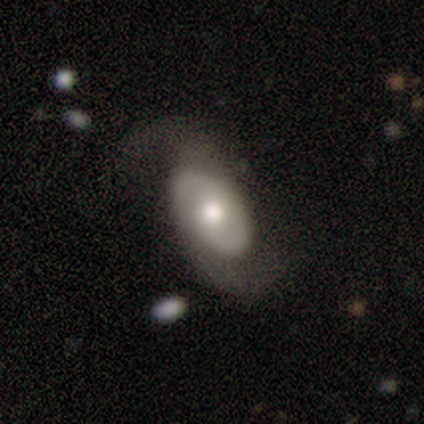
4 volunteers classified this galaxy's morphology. type=featured or disk (100%); edge-on=no (100%); bar=no (50%); spiral arms=yes (100%); winding=medium (50%); arm count=2 (100%); bulge=moderate (100%); merging=none (75%).